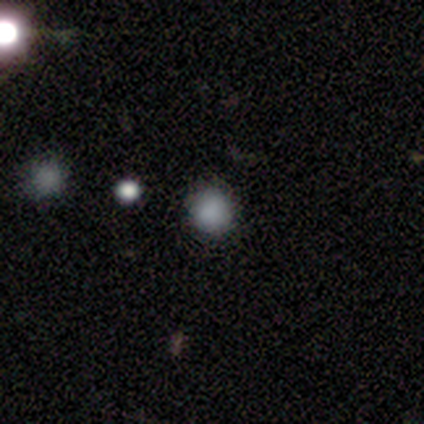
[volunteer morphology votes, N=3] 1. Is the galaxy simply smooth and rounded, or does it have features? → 100% smooth, 0% featured or disk, 0% star or artifact.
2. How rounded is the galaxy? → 100% round, 0% in between, 0% cigar-shaped.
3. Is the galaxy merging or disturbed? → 67% none, 33% minor disturbance, 0% major disturbance, 0% merger.